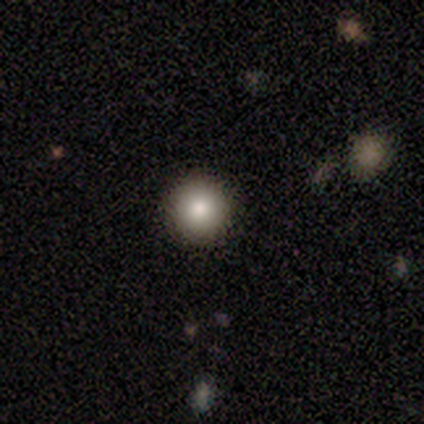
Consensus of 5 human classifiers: A smooth galaxy with no disk features (100%) that is round (100%).

Vote fractions:
- Smooth or featured? smooth: 100% / featured or disk: 0% / star or artifact: 0%
- How rounded? round: 100% / in between: 0% / cigar-shaped: 0%
- Merging? none: 100% / minor disturbance: 0% / major disturbance: 0% / merger: 0%